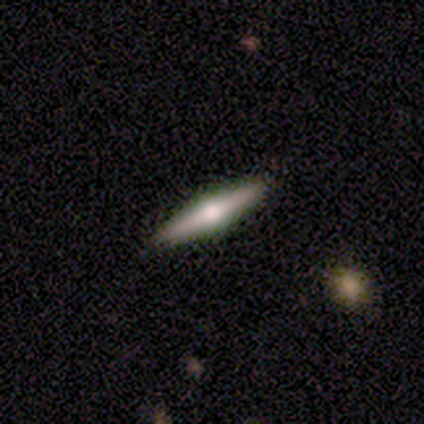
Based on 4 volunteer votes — smooth-or-featured: smooth: 50% (tied) | featured or disk: 50% (tied) | star or artifact: 0%
  how-rounded: cigar-shaped: 100% | round: 0% | in between: 0%
  merging: none: 75% | minor disturbance: 25% | major disturbance: 0% | merger: 0%